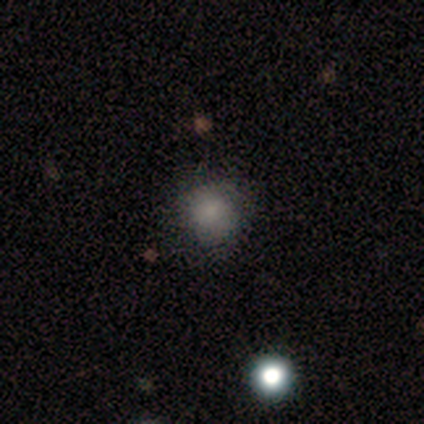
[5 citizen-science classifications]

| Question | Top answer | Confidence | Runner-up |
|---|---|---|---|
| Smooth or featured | smooth | 80% | featured or disk (20%) |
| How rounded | round | 100% | — |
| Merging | none | 80% | minor disturbance (20%) |